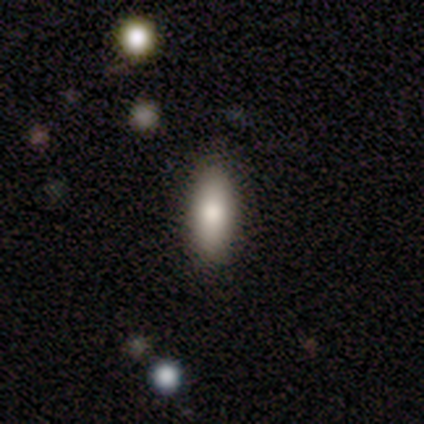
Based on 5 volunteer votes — Morphology: type=featured or disk (60%); edge-on=no (67%); bar=no (100%); spiral arms=no (100%); bulge=dominant (50%, tied with moderate); merging=none (80%).